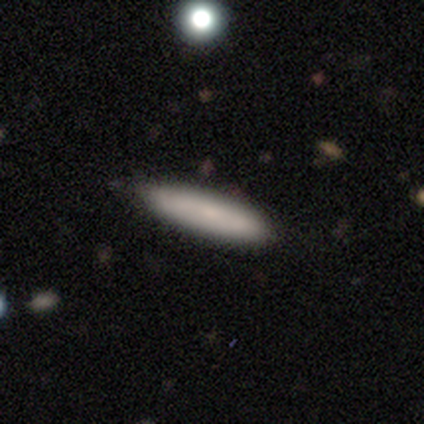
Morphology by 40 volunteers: Smooth or featured: smooth — 75% (featured or disk — 15%)
How rounded: cigar-shaped — 67% (in between — 33%)
Merging: none — 86% (minor disturbance — 11%)